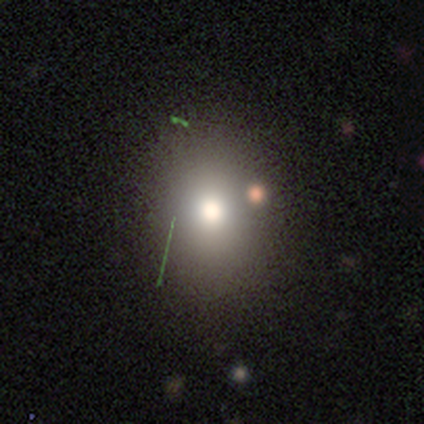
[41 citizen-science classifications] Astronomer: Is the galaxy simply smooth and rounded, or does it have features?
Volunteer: smooth — 76%.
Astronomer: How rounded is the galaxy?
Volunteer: in between — 55% (runner-up: round, 45%).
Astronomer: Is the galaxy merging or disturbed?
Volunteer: none — 85%.